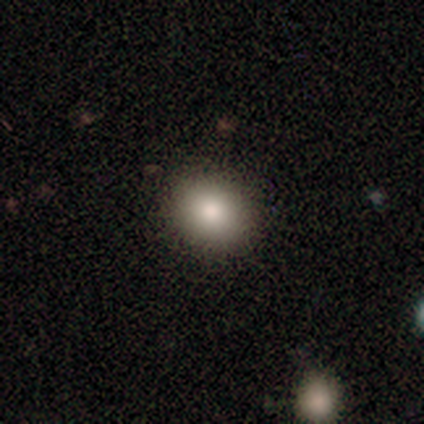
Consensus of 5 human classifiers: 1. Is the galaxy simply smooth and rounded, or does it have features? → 80% smooth, 20% featured or disk, 0% star or artifact.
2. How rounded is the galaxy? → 75% round, 25% in between, 0% cigar-shaped.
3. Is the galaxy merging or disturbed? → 80% none, 20% minor disturbance, 0% major disturbance, 0% merger.